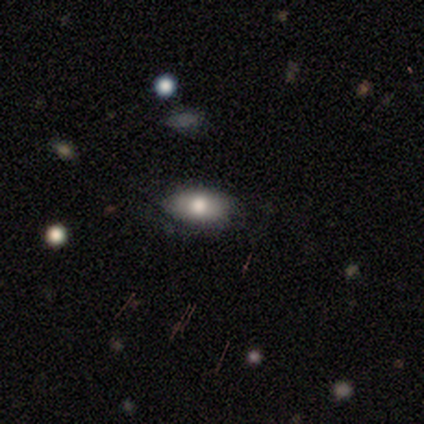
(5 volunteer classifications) Volunteers were most divided on "how rounded": in between: 80%, round: 20%, cigar-shaped: 0%. More confident: smooth or featured — smooth (100%); merging — none (100%).